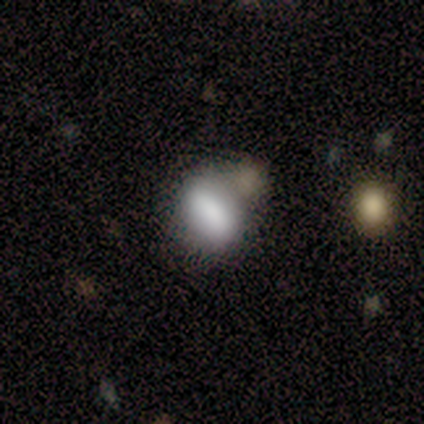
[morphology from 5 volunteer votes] A smooth galaxy with no disk features (80%) that is in between round and cigar-shaped (100%). Merging: none (75%).